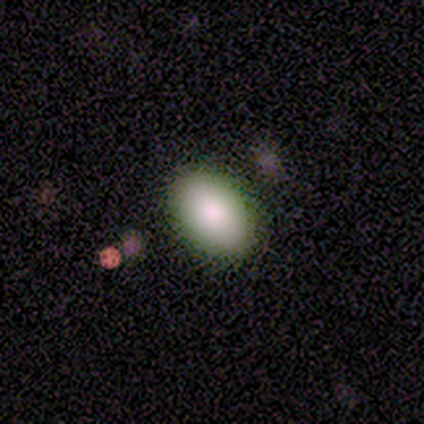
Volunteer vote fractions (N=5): A smooth galaxy with no disk features (100%) that is in between round and cigar-shaped (80%). Merging: none (80%).